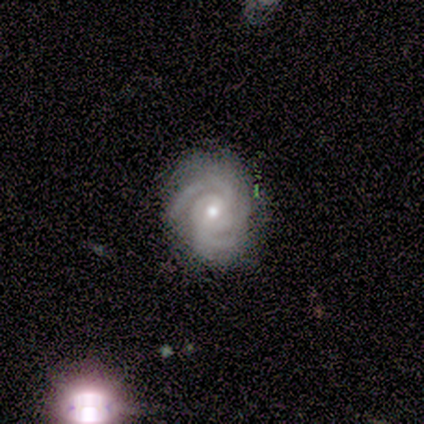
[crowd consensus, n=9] A featured or disk galaxy (100%) with no bar (67%), 3 (78%) tight (89%) spiral arms (100%) and a moderate central bulge (56%). Merging: none (89%).